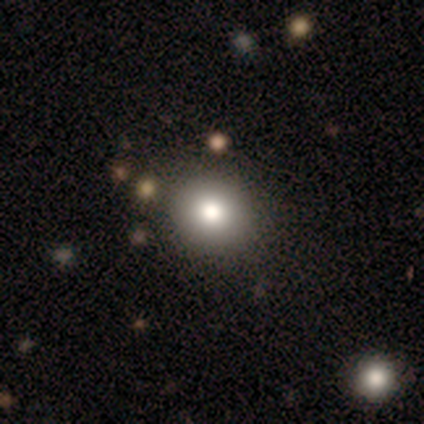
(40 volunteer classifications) Smooth or featured? 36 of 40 (90%) said smooth. How rounded? 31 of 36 (86%) said round. Merging? 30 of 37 (81%) said none.